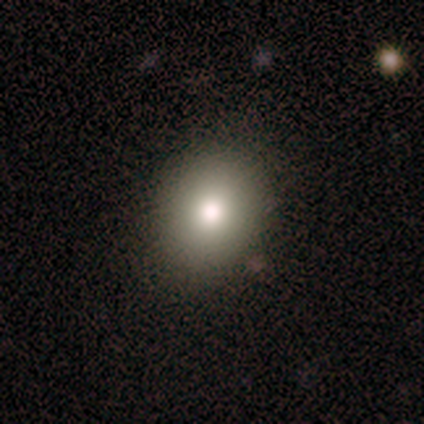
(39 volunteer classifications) A smooth galaxy with no disk features (82%) that is round (66%).

Vote fractions:
- Smooth or featured? smooth: 82% / featured or disk: 10% / star or artifact: 8%
- How rounded? round: 66% / in between: 34% / cigar-shaped: 0%
- Merging? none: 89% / minor disturbance: 11% / major disturbance: 0% / merger: 0%